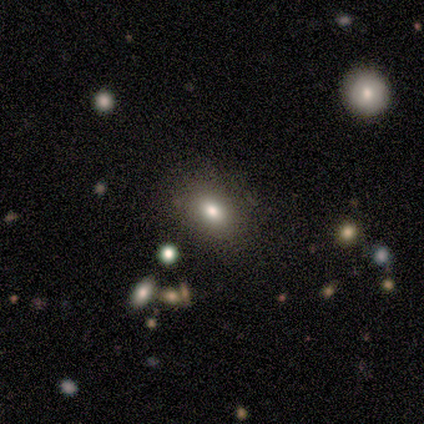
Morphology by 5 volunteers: smooth-or-featured: smooth: 80% | star or artifact: 20% | featured or disk: 0%
  how-rounded: in between: 100% | round: 0% | cigar-shaped: 0%
  merging: none: 75% | merger: 25% | minor disturbance: 0% | major disturbance: 0%